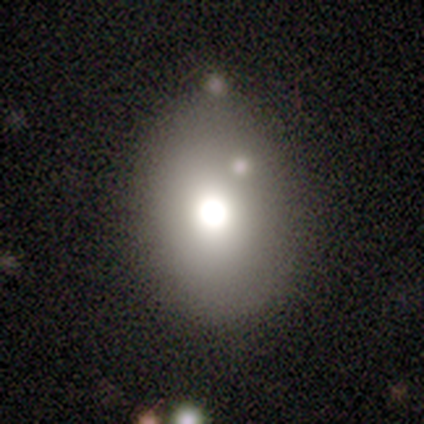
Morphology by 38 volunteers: A smooth galaxy with no disk features (87%) that is in between round and cigar-shaped (76%). Merging: none (69%).